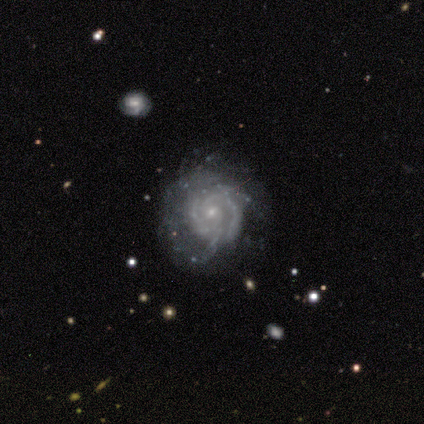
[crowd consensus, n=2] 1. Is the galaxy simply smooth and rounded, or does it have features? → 50% smooth (tied), 50% featured or disk (tied), 0% star or artifact.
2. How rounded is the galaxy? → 100% round, 0% in between, 0% cigar-shaped.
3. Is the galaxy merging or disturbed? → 100% none, 0% minor disturbance, 0% major disturbance, 0% merger.